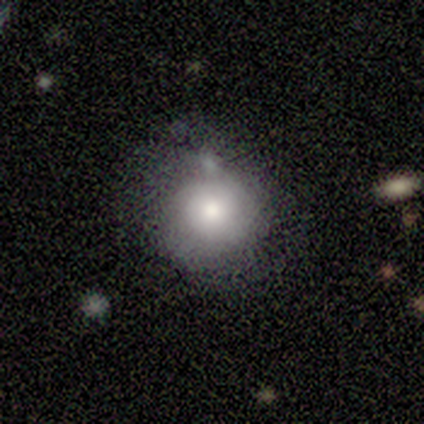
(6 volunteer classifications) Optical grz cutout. It shows a featured or disk galaxy (50%) with no bar (100%), no spiral arms (100%) and a large central bulge (67%). Merging: none (60%).